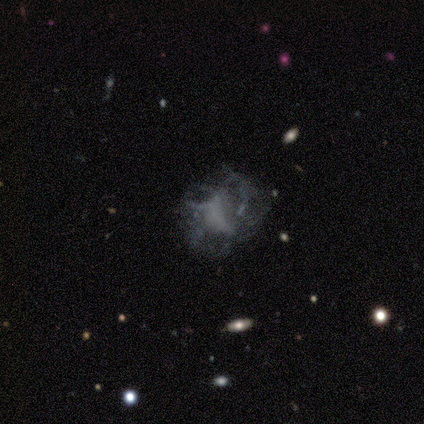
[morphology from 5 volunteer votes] Smooth or featured? smooth (40%, tied with featured or disk)
How rounded? round (50%, tied with in between)
Merging? major disturbance (75%)